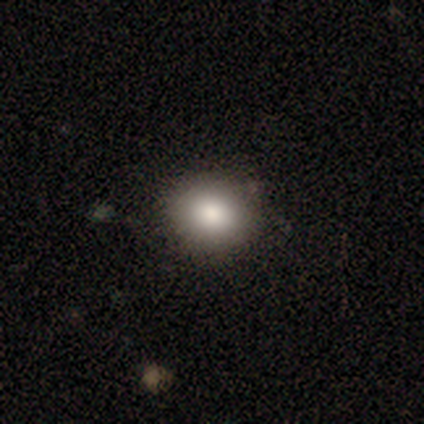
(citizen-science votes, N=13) Volunteers were most divided on "how rounded": round: 55%, in between: 45%, cigar-shaped: 0%. More confident: merging — none (100%); smooth or featured — smooth (85%).